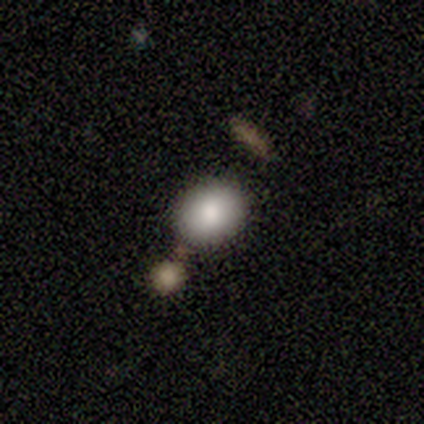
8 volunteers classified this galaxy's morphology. Smooth or featured? 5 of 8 (62%) said smooth. How rounded? 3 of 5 (60%) said in between. Merging? 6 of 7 (86%) said none.